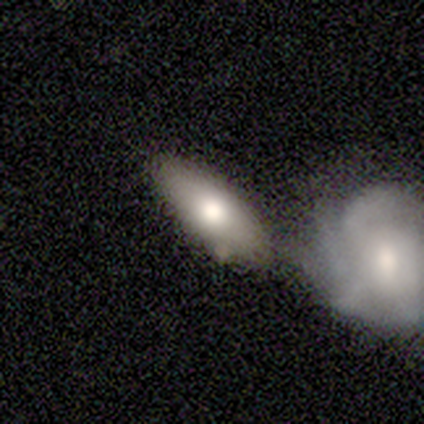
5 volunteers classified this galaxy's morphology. smooth 60%, featured or disk 20%, star or artifact 20%. Down the decision tree: how rounded — in between (100%); merging — merger (50%).